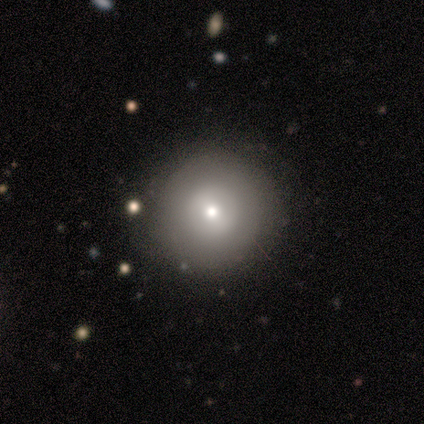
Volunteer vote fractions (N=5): Q: Smooth or featured?
A: smooth (80%); runner-up: star or artifact (20%)
Q: How rounded?
A: round (100%)
Q: Merging?
A: none (75%); runner-up: minor disturbance (25%)